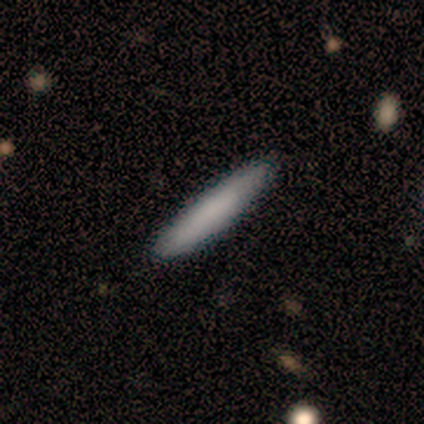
Q: Smooth or featured?
A: smooth (100%)
Q: How rounded?
A: cigar-shaped (100%)
Q: Merging?
A: none (100%)